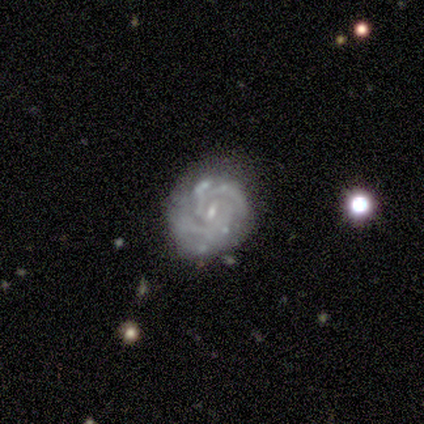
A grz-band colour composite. It shows a featured or disk galaxy (80%) with a weak bar (50%), medium (67%) spiral arms (75%) and a small central bulge (75%). Merging: none (80%).